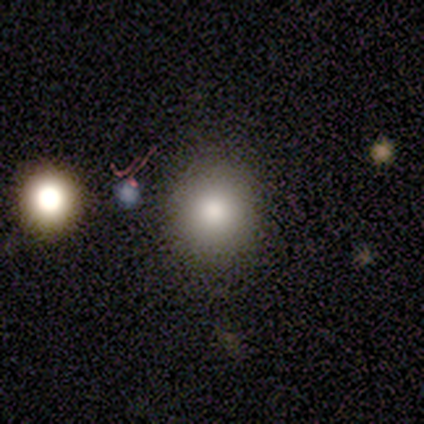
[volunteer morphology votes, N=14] smooth 86%, featured or disk 14%, star or artifact 0%. Down the decision tree: how rounded — round (83%); merging — none (93%).